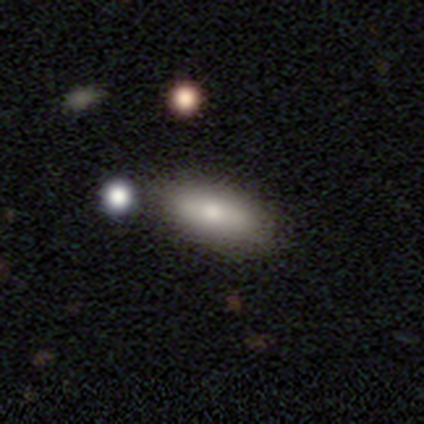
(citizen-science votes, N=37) Smooth or featured: smooth — 76% (featured or disk — 14%)
How rounded: in between — 89% (cigar-shaped — 11%)
Merging: none — 64% (minor disturbance — 24%)